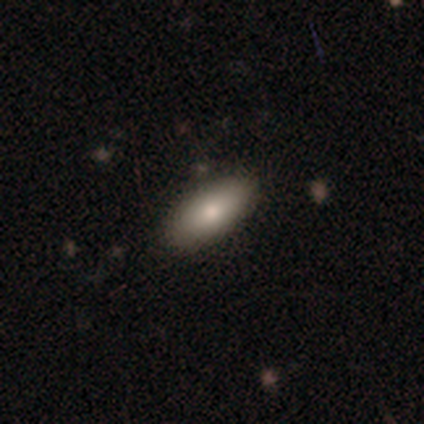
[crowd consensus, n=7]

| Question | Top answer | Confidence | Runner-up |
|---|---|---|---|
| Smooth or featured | smooth | 100% | — |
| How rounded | in between | 86% | cigar-shaped (14%) |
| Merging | none | 71% | minor disturbance (29%) |